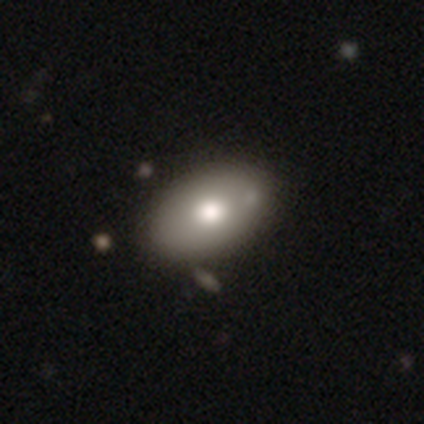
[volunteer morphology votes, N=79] smooth-or-featured: smooth: 72% | featured or disk: 19% | star or artifact: 9%
  how-rounded: in between: 96% | round: 4% | cigar-shaped: 0%
  merging: none: 40% | merger: 10% | minor disturbance: 8% | major disturbance: 0%